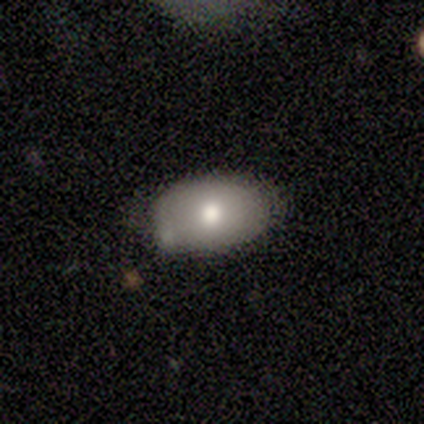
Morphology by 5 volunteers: smooth-or-featured: smooth: 60% | star or artifact: 40% | featured or disk: 0%
  how-rounded: in between: 67% | round: 33% | cigar-shaped: 0%
  merging: minor disturbance: 67% | none: 33% | major disturbance: 0% | merger: 0%